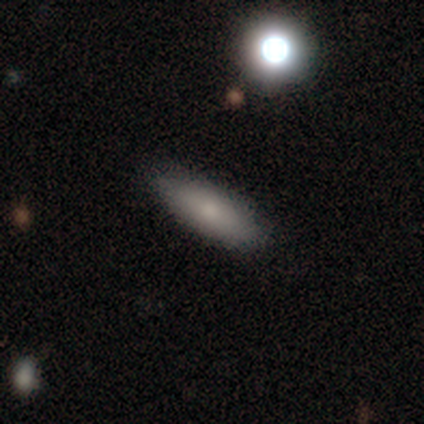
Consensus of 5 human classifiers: Smooth or featured: smooth — 80% (star or artifact — 20%)
How rounded: cigar-shaped — 75% (in between — 25%)
Merging: none — 75% (minor disturbance — 25%)